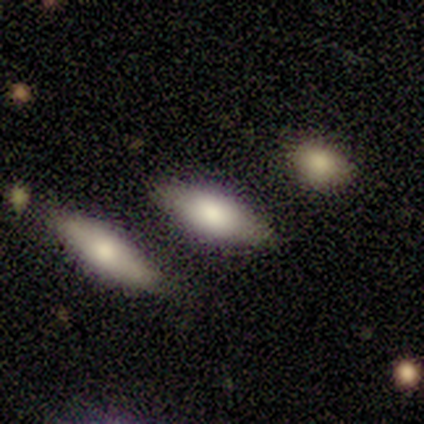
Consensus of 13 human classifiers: A smooth galaxy with no disk features (77%) that is in between round and cigar-shaped (90%).

Vote fractions:
- Smooth or featured? smooth: 77% / featured or disk: 23% / star or artifact: 0%
- How rounded? in between: 90% / cigar-shaped: 10% / round: 0%
- Merging? none: 85% / minor disturbance: 15% / major disturbance: 0% / merger: 0%